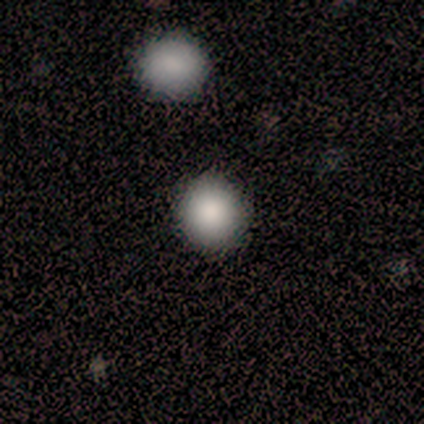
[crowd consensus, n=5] Smooth or featured: smooth — 100%
How rounded: round — 100%
Merging: none — 80% (merger — 20%)